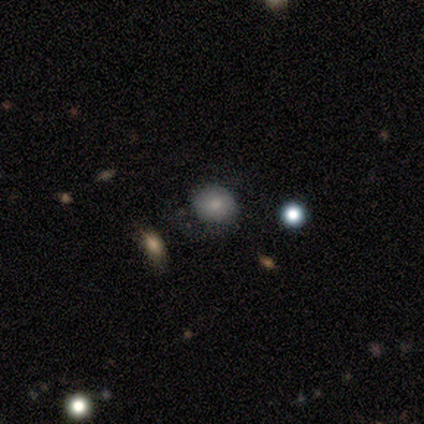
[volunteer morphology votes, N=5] smooth_or_featured: smooth (p=0.80) [alt: star or artifact p=0.20]
how_rounded: round (p=0.75) [alt: in between p=0.25]
merging: none (p=0.75) [alt: major disturbance p=0.25]